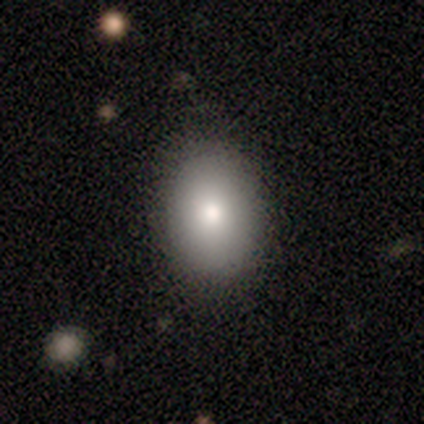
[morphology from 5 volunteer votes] This is clearly a smooth galaxy (100%). How rounded: clearly in between (80%). Merging: clearly none (80%).